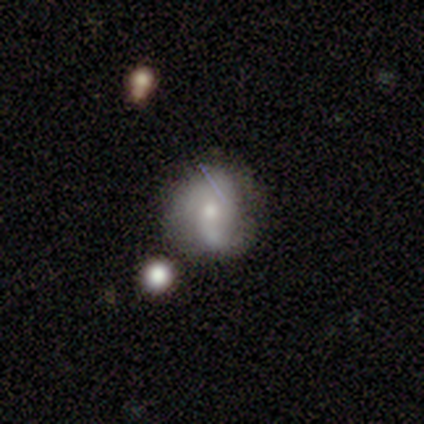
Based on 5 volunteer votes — Smooth or featured? featured or disk (60%)
Edge-on disk? no (100%)
Bar? no (67%)
Spiral arms? yes (67%)
Spiral winding? tight (50%, tied with medium)
Spiral arm count? 1 (50%, tied with 3)
Bulge size? moderate (33%, tied with small and none)
Merging? none (80%)